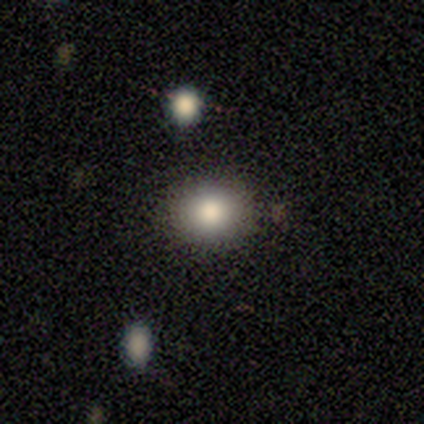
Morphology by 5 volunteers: A smooth galaxy with no disk features (80%) that is in between round and cigar-shaped (75%).

Vote fractions:
- Smooth or featured? smooth: 80% / star or artifact: 20% / featured or disk: 0%
- How rounded? in between: 75% / round: 25% / cigar-shaped: 0%
- Merging? none: 100% / minor disturbance: 0% / major disturbance: 0% / merger: 0%